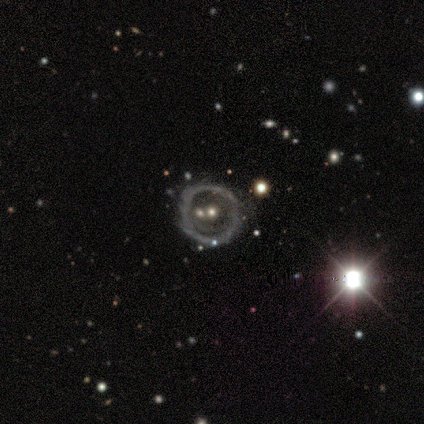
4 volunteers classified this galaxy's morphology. Smooth or featured?
  - featured or disk: 75% *
  - smooth: 25%
  - star or artifact: 0%
Edge-on disk?
  - no: 100% *
  - yes: 0%
Bar?
  - no: 100% *
  - strong: 0%
  - weak: 0%
Spiral arms?
  - no: 100% *
  - yes: 0%
Bulge size?
  - moderate: 67% *
  - small: 33%
  - dominant: 0%
  - large: 0%
  - none: 0%
Merging?
  - none: 50% * (tied)
  - merger: 50% * (tied)
  - minor disturbance: 0%
  - major disturbance: 0%